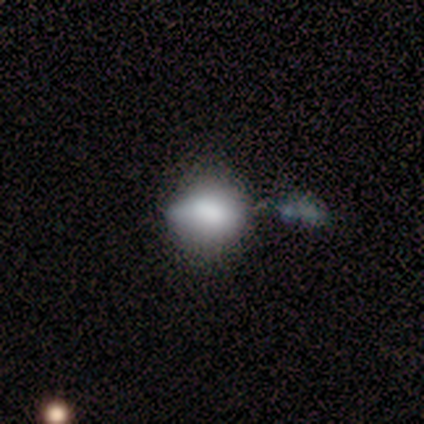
Smooth or featured? 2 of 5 (40%, tied with star or artifact) said smooth. How rounded? 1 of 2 (50%, tied with in between) said round. Merging? 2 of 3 (67%) said none.